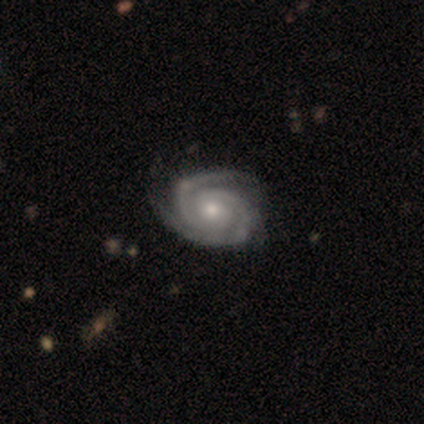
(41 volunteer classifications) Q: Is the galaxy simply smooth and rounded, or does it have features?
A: featured or disk — 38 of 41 (93%).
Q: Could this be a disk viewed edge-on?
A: no — 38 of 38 (100%).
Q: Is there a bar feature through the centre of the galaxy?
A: no — 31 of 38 (82%).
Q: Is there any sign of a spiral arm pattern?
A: yes — 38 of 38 (100%).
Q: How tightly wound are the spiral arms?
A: tight — 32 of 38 (84%).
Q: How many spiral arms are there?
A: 2 — 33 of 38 (87%).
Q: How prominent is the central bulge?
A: moderate — 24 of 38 (63%).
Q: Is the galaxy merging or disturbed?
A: none — 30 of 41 (73%).